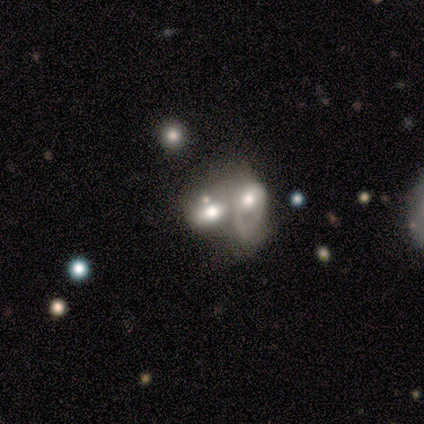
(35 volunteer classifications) Smooth or featured: featured or disk — 54% (smooth — 31%)
Edge-on disk: no — 95% (yes — 5%)
Bar: no — 89% (weak — 11%)
Spiral arms: no — 56% (yes — 44%)
Bulge size: large — 50% (moderate — 33%)
Merging: merger — 93% (minor disturbance — 3%)